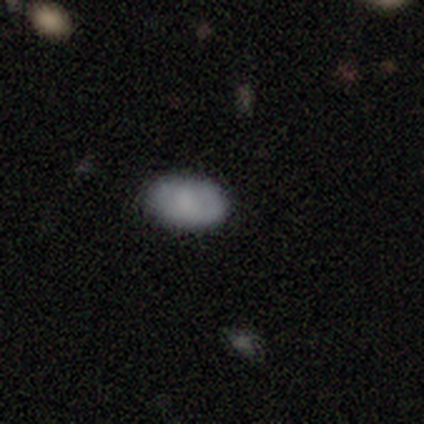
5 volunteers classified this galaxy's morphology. A smooth galaxy with no disk features (80%) that is in between round and cigar-shaped (100%).

Vote fractions:
- Smooth or featured? smooth: 80% / star or artifact: 20% / featured or disk: 0%
- How rounded? in between: 100% / round: 0% / cigar-shaped: 0%
- Merging? none: 100% / minor disturbance: 0% / major disturbance: 0% / merger: 0%